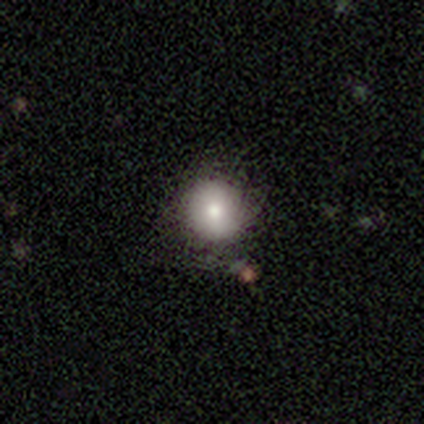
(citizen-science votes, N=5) Smooth or featured?
  - smooth: 100% *
  - featured or disk: 0%
  - star or artifact: 0%
How rounded?
  - round: 100% *
  - in between: 0%
  - cigar-shaped: 0%
Merging?
  - none: 100% *
  - minor disturbance: 0%
  - major disturbance: 0%
  - merger: 0%